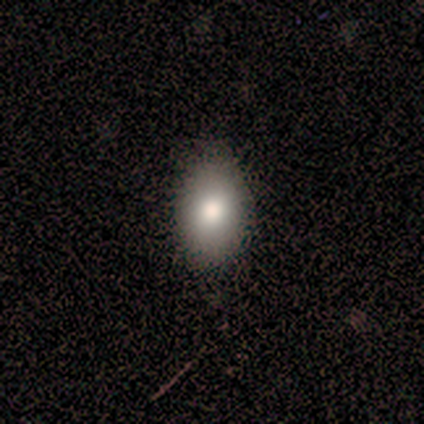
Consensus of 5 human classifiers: Smooth or featured: smooth — 80% (star or artifact — 20%)
How rounded: in between — 75% (round — 25%)
Merging: none — 50% (tied with minor disturbance — 50%)